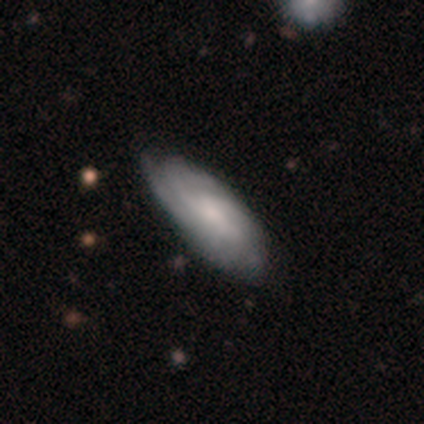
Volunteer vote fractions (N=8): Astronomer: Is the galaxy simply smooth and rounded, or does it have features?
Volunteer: featured or disk — 88%.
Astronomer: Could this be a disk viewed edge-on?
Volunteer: no — 100%.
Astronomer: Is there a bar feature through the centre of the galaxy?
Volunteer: weak — 43%, tied with no at 43%.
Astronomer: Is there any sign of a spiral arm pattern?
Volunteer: yes — 100%.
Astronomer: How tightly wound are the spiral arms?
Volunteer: tight — 71%.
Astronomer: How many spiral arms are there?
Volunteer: can't tell — 57%.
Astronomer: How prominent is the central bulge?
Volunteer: moderate — 71%.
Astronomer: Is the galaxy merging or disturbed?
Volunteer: none — 50% (runner-up: minor disturbance, 38%).